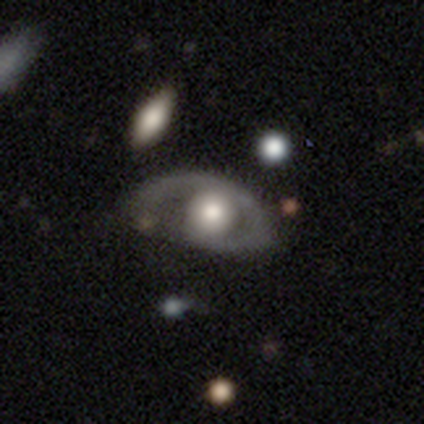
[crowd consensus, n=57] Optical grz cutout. It shows a featured or disk galaxy (68%) with no bar (92%), no spiral arms (54%) and a large central bulge (41%). Merging: none (38%).